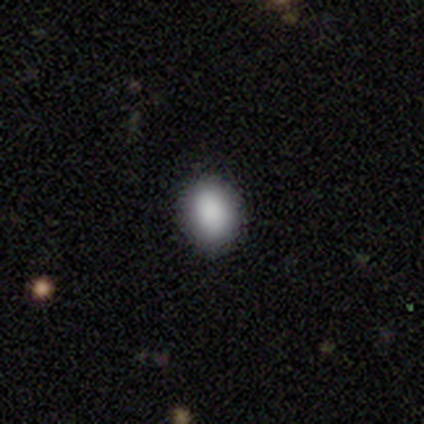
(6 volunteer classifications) smooth 100%, featured or disk 0%, star or artifact 0%. Down the decision tree: how rounded — round (83%); merging — none (83%).